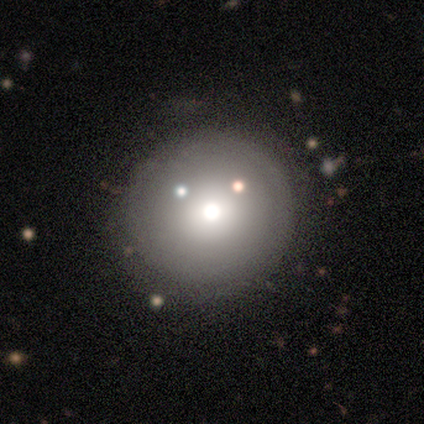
Overall: smooth (40%, tied with featured or disk). How rounded: round (100%). Merging: none (75%).